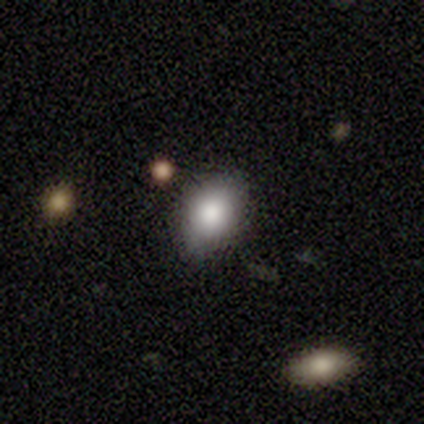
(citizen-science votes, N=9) Overall: smooth (67%; featured or disk 33%). How rounded: in between (67%; round 33%). Merging: none (89%).